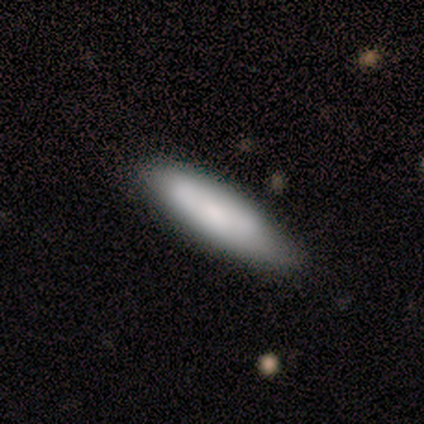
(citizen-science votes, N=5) Smooth or featured?
  - smooth: 60% *
  - featured or disk: 40%
  - star or artifact: 0%
How rounded?
  - in between: 67% *
  - cigar-shaped: 33%
  - round: 0%
Merging?
  - none: 80% *
  - merger: 20%
  - minor disturbance: 0%
  - major disturbance: 0%